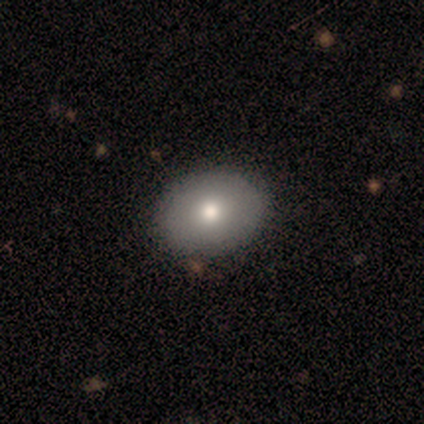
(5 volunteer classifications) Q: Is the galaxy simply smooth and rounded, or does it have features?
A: smooth — 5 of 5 (100%).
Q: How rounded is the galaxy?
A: in between — 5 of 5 (100%).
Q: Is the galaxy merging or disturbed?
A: none — 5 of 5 (100%).